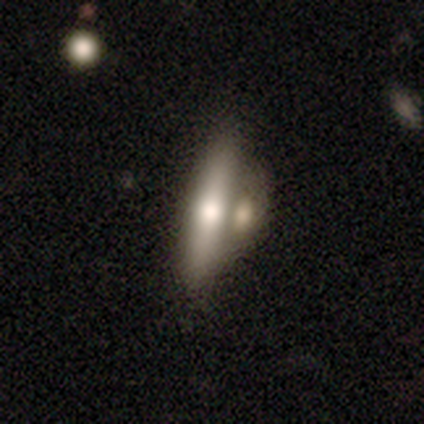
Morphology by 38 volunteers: smooth-or-featured: featured or disk: 45% | smooth: 42% | star or artifact: 13%
  disk-edge-on: yes: 82% | no: 18%
    edge-on-bulge: rounded: 86% | boxy: 7% | none: 7%
  merging: merger: 58% | none: 36% | minor disturbance: 3% | major disturbance: 3%